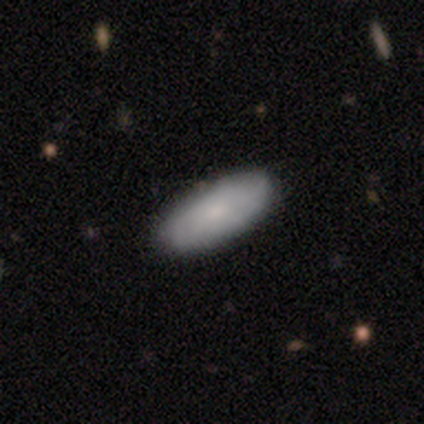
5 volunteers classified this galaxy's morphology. A smooth galaxy with no disk features (60%) that is in between round and cigar-shaped (100%).

Vote fractions:
- Smooth or featured? smooth: 60% / featured or disk: 40% / star or artifact: 0%
- How rounded? in between: 100% / round: 0% / cigar-shaped: 0%
- Merging? none: 100% / minor disturbance: 0% / major disturbance: 0% / merger: 0%